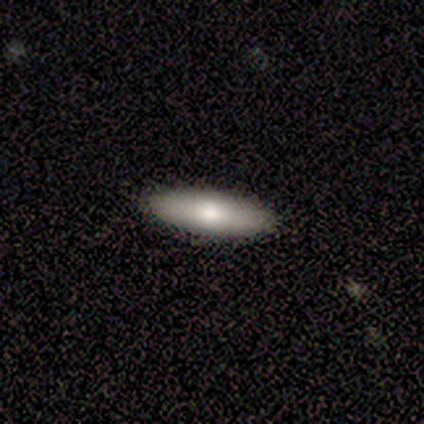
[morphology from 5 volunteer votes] Q: Smooth or featured?
A: smooth (80%); runner-up: star or artifact (20%)
Q: How rounded?
A: cigar-shaped (75%); runner-up: in between (25%)
Q: Merging?
A: none (75%); runner-up: merger (25%)